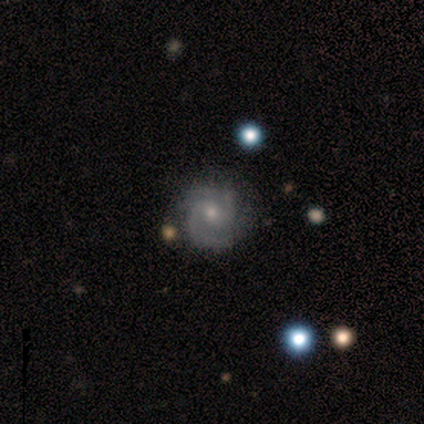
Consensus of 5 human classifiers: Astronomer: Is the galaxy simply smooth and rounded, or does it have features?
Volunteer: featured or disk — 60%.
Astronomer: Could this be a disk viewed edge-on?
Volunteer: no — 100%.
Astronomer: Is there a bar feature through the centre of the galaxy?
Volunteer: weak — 67%.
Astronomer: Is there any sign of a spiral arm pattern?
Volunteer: yes — 100%.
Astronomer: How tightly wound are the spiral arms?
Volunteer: tight — 67%.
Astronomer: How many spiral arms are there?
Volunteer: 2 — 100%.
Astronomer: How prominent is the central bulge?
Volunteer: large — 33%, tied with moderate and small at 33%.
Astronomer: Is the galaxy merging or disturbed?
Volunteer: none — 75%.